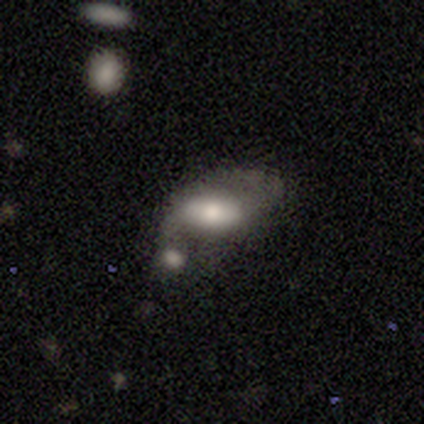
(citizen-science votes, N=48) Overall: smooth (58%; featured or disk 42%). How rounded: in between (96%). Merging: merger (48%; major disturbance 23%).